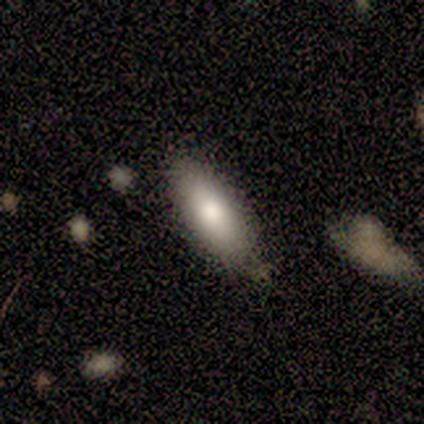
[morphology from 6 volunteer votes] Smooth or featured?
  - smooth: 67% *
  - featured or disk: 33%
  - star or artifact: 0%
How rounded?
  - in between: 75% *
  - cigar-shaped: 25%
  - round: 0%
Merging?
  - none: 83% *
  - minor disturbance: 17%
  - major disturbance: 0%
  - merger: 0%